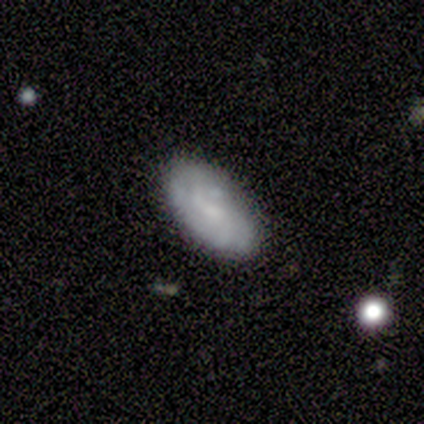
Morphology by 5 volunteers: type=smooth (40%, tied with featured or disk); roundness=in between (100%); merging=none (75%).